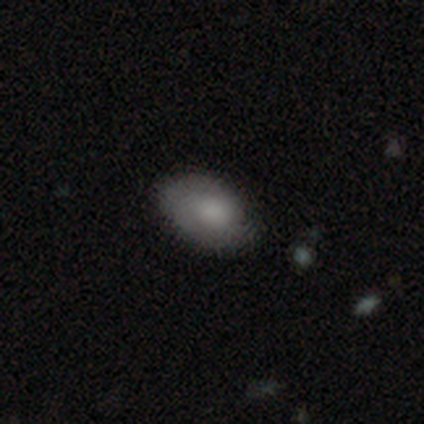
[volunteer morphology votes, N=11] This appears to be a smooth galaxy with no disk features (73%) that is in between round and cigar-shaped (75%). Merging: none (70%).